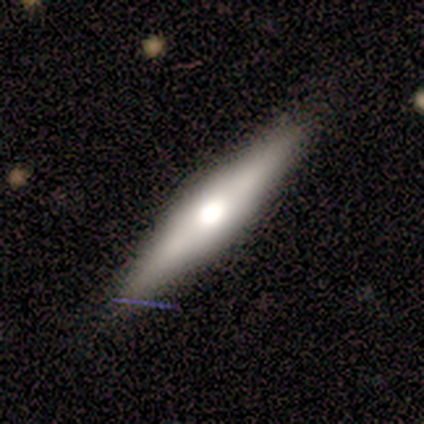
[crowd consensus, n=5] This appears to be a featured or disk galaxy (60%) viewed edge-on (67%) with a rounded central bulge (100%). Merging: none (60%).